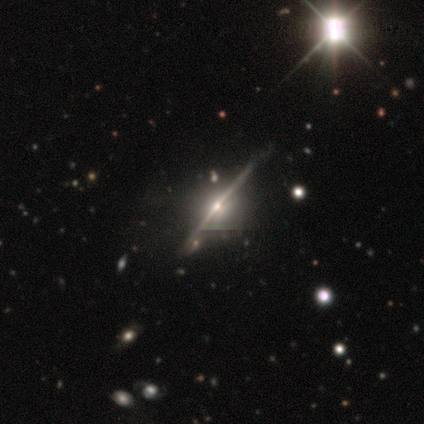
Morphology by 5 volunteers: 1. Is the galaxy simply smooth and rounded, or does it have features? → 80% featured or disk, 20% star or artifact, 0% smooth.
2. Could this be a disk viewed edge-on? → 75% yes, 25% no.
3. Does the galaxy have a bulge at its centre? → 100% rounded, 0% boxy, 0% none.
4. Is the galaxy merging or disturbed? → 50% merger, 25% none, 25% major disturbance, 0% minor disturbance.